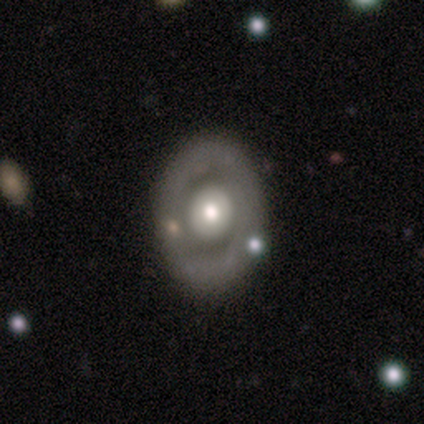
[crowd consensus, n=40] smooth_or_featured: featured or disk (p=0.72) [alt: smooth p=0.23]
disk_edge_on: no (p=0.97) [alt: yes p=0.03]
bar: no (p=0.93) [alt: strong p=0.07]
has_spiral_arms: no (p=0.89) [alt: yes p=0.11]
bulge_size: moderate (p=0.71) [alt: large p=0.14]
merging: none (p=0.84) [alt: minor disturbance p=0.11]